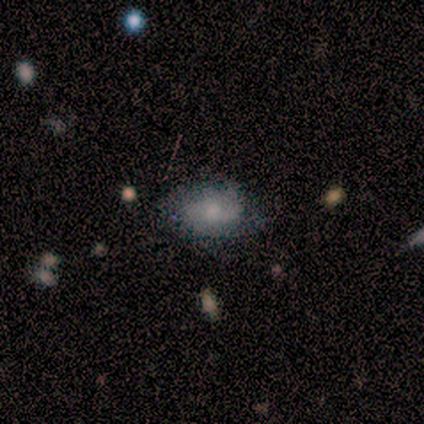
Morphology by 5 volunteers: Volunteers were most divided on "smooth or featured": smooth: 60%, featured or disk: 40%, star or artifact: 0%. More confident: how rounded — in between (67%); merging — none (60%).